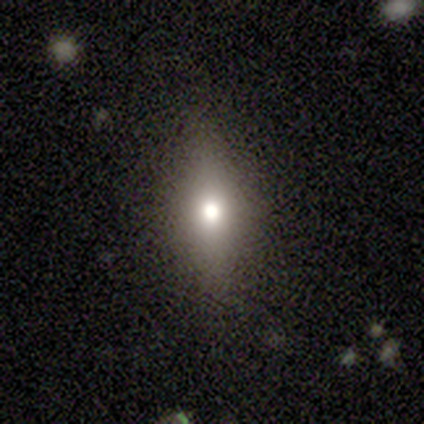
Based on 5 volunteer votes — Morphology: type=smooth (80%); roundness=in between (50%, tied with cigar-shaped); merging=none (60%).